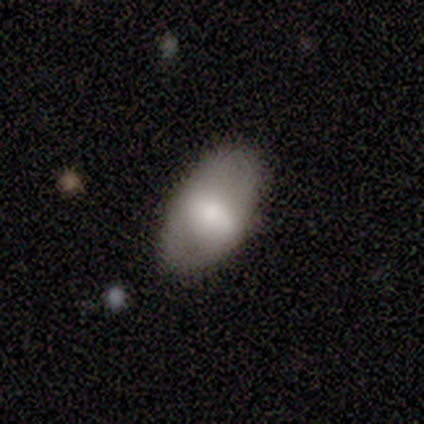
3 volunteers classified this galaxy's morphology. smooth_or_featured: smooth (p=0.67) [alt: featured or disk p=0.33]
how_rounded: in between (p=1.00)
merging: none (p=1.00)